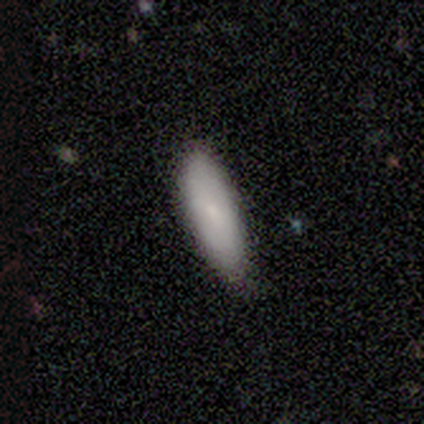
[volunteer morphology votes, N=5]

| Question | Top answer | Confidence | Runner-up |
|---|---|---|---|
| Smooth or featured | smooth | 80% | star or artifact (20%) |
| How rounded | in between | 75% | cigar-shaped (25%) |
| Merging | none | 75% | minor disturbance (25%) |